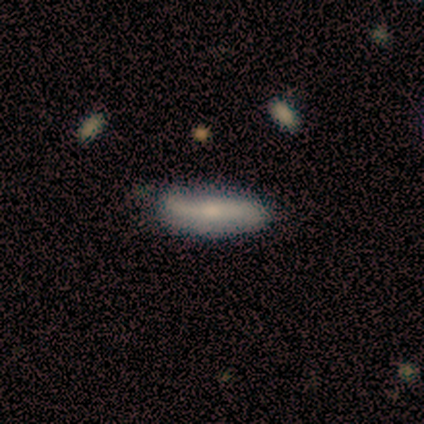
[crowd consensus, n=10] A smooth galaxy with no disk features (70%) that is cigar-shaped (57%). Merging: none (56%).